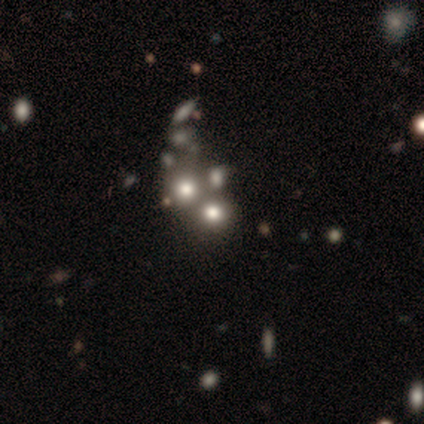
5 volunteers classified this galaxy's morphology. A star or artifact, not a galaxy (60%).

Vote fractions:
- Smooth or featured? star or artifact: 60% / smooth: 20% / featured or disk: 20%